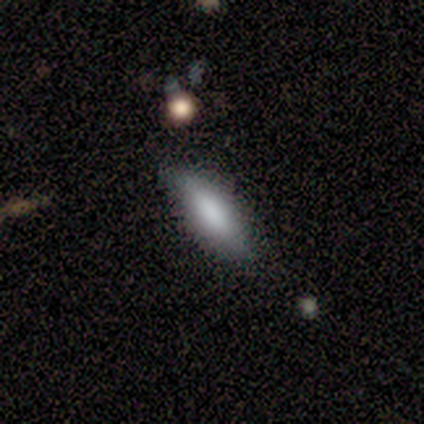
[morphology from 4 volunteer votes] Smooth or featured?
  - smooth: 75% *
  - featured or disk: 25%
  - star or artifact: 0%
How rounded?
  - in between: 67% *
  - cigar-shaped: 33%
  - round: 0%
Merging?
  - none: 100% *
  - minor disturbance: 0%
  - major disturbance: 0%
  - merger: 0%